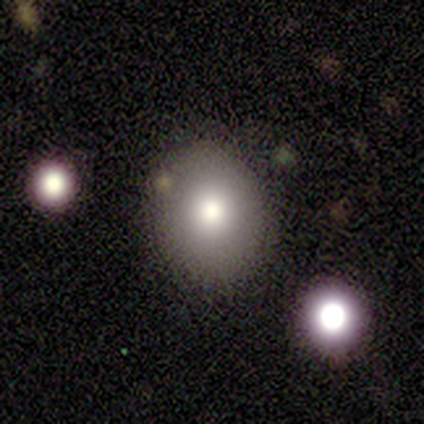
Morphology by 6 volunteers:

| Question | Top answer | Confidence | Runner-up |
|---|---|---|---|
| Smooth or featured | smooth | 50% | featured or disk (33%) |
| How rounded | round | 100% | — |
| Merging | none | 80% | merger (20%) |